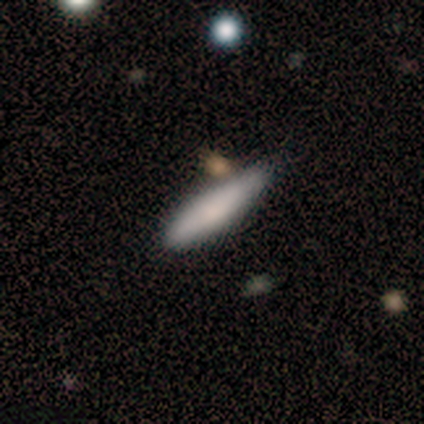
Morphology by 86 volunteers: smooth-or-featured: smooth: 73% | featured or disk: 19% | star or artifact: 8%
  how-rounded: cigar-shaped: 87% | in between: 13% | round: 0%
  merging: none: 62% | minor disturbance: 25% | merger: 8% | major disturbance: 5%